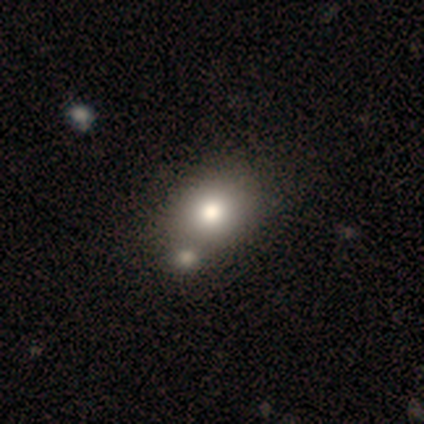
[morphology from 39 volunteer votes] smooth-or-featured: smooth: 79% | featured or disk: 10% | star or artifact: 10%
  how-rounded: in between: 65% | round: 35% | cigar-shaped: 0%
  merging: none: 51% | merger: 29% | minor disturbance: 9% | major disturbance: 0%